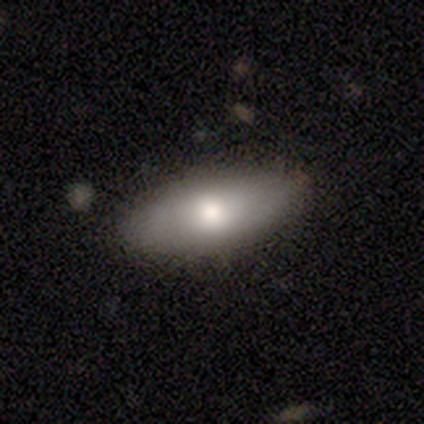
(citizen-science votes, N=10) Q: Smooth or featured?
A: smooth (80%); runner-up: featured or disk (20%)
Q: How rounded?
A: in between (100%)
Q: Merging?
A: none (80%); runner-up: minor disturbance (10%)